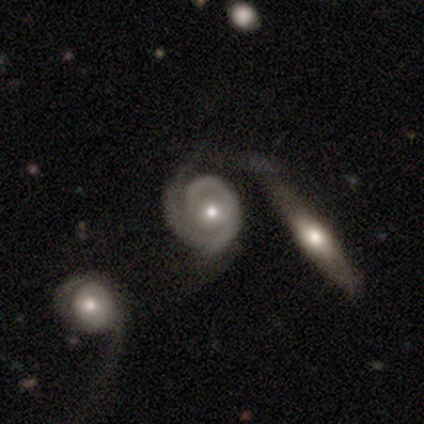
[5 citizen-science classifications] Smooth or featured? featured or disk (60%)
Edge-on disk? no (100%)
Bar? strong (33%, tied with weak and no)
Spiral arms? yes (100%)
Spiral winding? medium (67%)
Spiral arm count? 2 (67%)
Bulge size? moderate (67%)
Merging? major disturbance (75%)